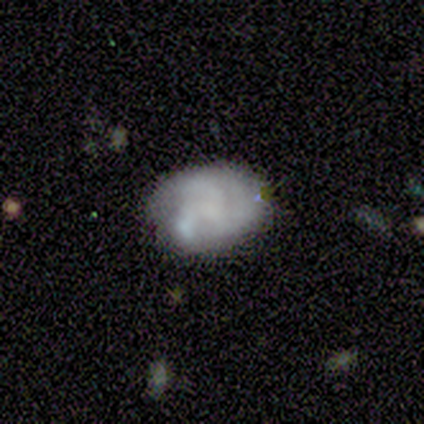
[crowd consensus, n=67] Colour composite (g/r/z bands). It shows a featured or disk galaxy (55%) with no bar (89%), 3 (81%) tight (42%) spiral arms (70%) and no central bulge (68%). Merging: none (48%).